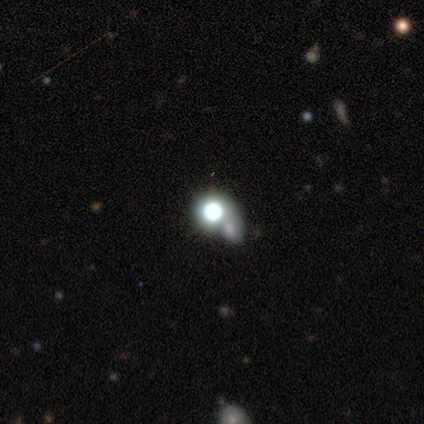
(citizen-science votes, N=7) Q: Smooth or featured?
A: smooth (71%); runner-up: featured or disk (14%)
Q: How rounded?
A: round (100%)
Q: Merging?
A: none (33%); tied with: merger (33%)